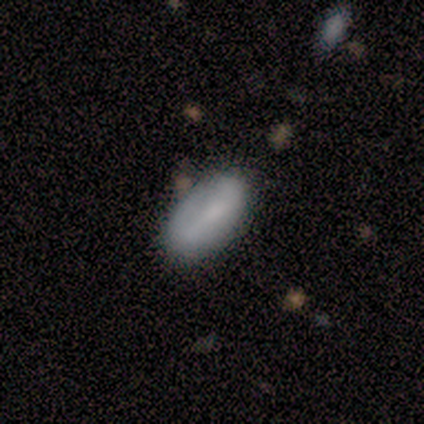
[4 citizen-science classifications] Volunteers were most divided on "merging": none: 50%, minor disturbance: 25%, major disturbance: 25%, merger: 0%. More confident: smooth or featured — smooth (100%); how rounded — in between (100%).